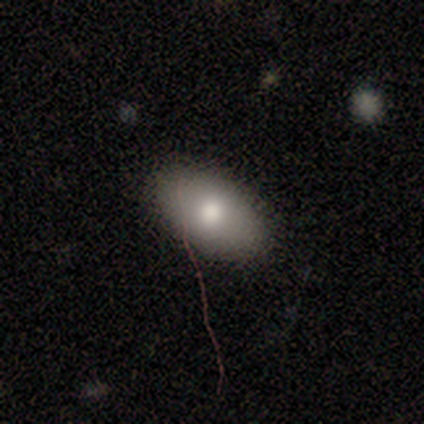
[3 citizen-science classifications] Smooth or featured: smooth — 100%
How rounded: in between — 100%
Merging: none — 100%